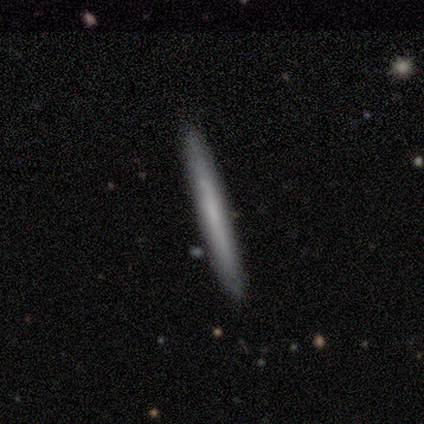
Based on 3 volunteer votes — Smooth or featured?
  - featured or disk: 67% *
  - smooth: 33%
  - star or artifact: 0%
Edge-on disk?
  - yes: 50% * (tied)
  - no: 50% * (tied)
Edge-on bulge?
  - none: 100% *
  - boxy: 0%
  - rounded: 0%
Merging?
  - none: 67% *
  - merger: 33%
  - minor disturbance: 0%
  - major disturbance: 0%